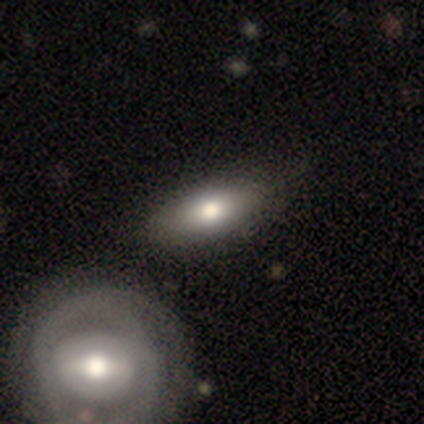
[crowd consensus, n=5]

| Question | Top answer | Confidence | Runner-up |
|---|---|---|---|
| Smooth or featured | smooth | 100% | — |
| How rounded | in between | 100% | — |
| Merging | none | 40% | tied: minor disturbance (40%) |